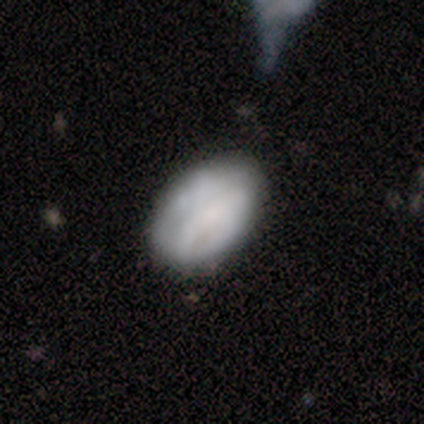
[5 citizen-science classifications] Overall: smooth (60%; featured or disk 40%). How rounded: in between (100%). Merging: none (100%).